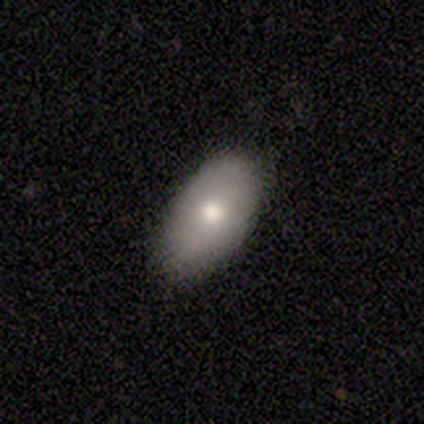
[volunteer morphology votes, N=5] Volunteers were most divided on "merging": none: 80%, minor disturbance: 20%, major disturbance: 0%, merger: 0%. More confident: smooth or featured — smooth (100%); how rounded — in between (100%).